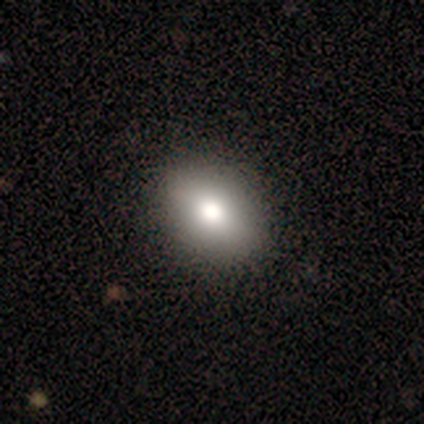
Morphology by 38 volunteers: A smooth galaxy with no disk features (87%) that is in between round and cigar-shaped (64%). Merging: none (89%).